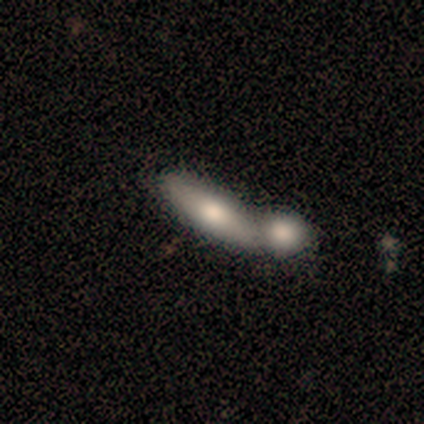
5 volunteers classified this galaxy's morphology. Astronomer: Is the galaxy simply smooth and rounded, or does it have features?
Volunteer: featured or disk — 60% (runner-up: smooth, 40%).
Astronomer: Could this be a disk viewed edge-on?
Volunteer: yes — 67%.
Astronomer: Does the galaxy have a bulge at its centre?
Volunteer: rounded — 100%.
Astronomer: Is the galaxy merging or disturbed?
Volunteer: merger — 60% (runner-up: none, 40%).